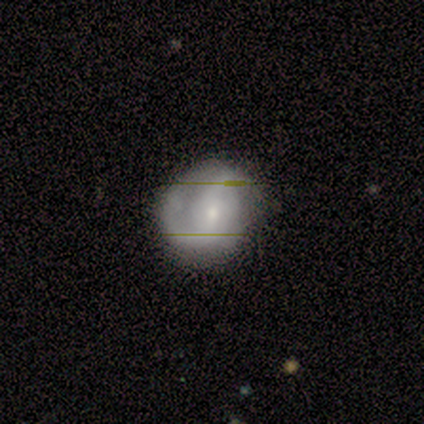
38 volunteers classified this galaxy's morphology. featured or disk 66%, smooth 29%, star or artifact 5%. Down the decision tree: edge-on disk — no (96%); bar — weak (54%); spiral arms — yes (96%); spiral arm count — 2 (74%); spiral winding — medium (43%, tied with loose); bulge size — small (88%); merging — none (64%).